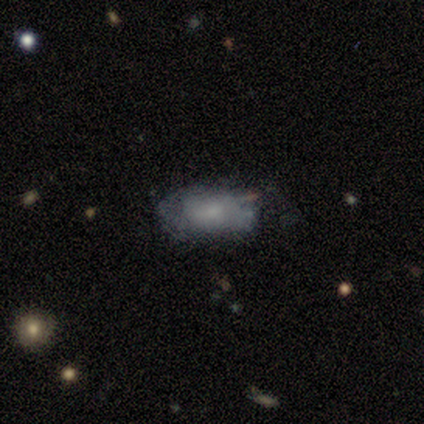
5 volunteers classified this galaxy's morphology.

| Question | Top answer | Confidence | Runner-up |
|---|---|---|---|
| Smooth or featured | featured or disk | 60% | smooth (40%) |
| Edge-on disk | no | 100% | — |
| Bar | no | 67% | weak (33%) |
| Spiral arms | yes | 67% | no (33%) |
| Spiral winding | loose | 100% | — |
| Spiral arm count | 1 | 50% | tied: 2 (50%) |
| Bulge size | large | 33% | tied: moderate (33%), small (33%) |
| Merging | none | 80% | minor disturbance (20%) |